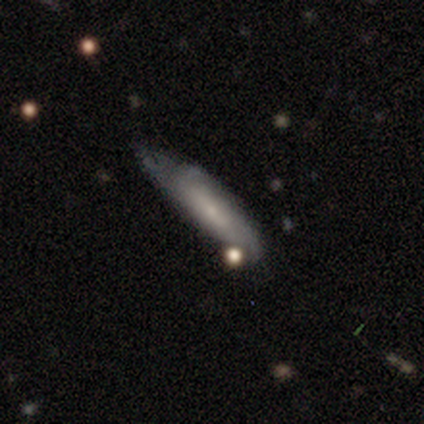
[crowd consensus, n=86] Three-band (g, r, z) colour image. It shows a smooth galaxy with no disk features (53%) that is cigar-shaped (70%). Merging: minor disturbance (47%).